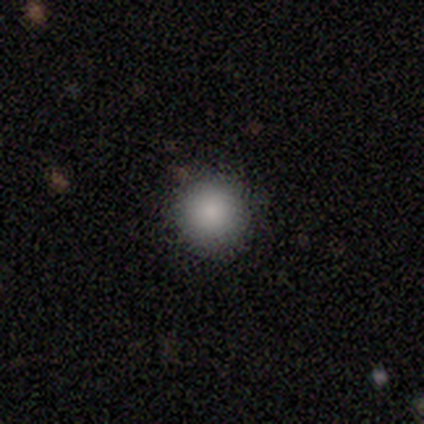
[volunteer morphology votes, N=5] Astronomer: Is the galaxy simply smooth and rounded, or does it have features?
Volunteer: smooth — 100%.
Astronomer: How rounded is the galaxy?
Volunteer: round — 100%.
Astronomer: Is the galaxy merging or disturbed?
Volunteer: none — 100%.